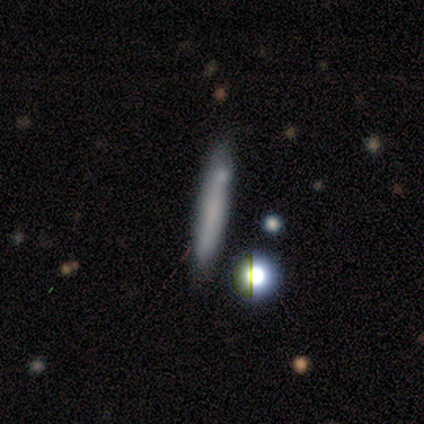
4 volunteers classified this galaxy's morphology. smooth_or_featured: smooth (p=0.50) [tied with: featured or disk p=0.50]
how_rounded: cigar-shaped (p=1.00)
merging: none (p=0.75) [alt: minor disturbance p=0.25]